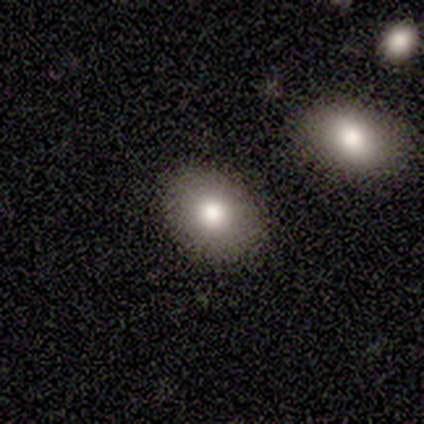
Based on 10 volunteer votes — Smooth or featured: smooth — 90% (star or artifact — 10%)
How rounded: in between — 56% (round — 44%)
Merging: none — 100%